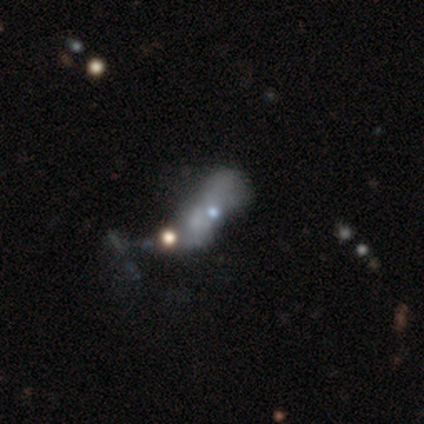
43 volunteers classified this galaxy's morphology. Smooth or featured?
  - featured or disk: 44% *
  - smooth: 35%
  - star or artifact: 21%
Edge-on disk?
  - no: 89% *
  - yes: 11%
Bar?
  - no: 100% *
  - strong: 0%
  - weak: 0%
Spiral arms?
  - no: 100% *
  - yes: 0%
Bulge size?
  - small: 41% *
  - none: 35%
  - moderate: 24%
  - dominant: 0%
  - large: 0%
Merging?
  - merger: 47% *
  - major disturbance: 29%
  - minor disturbance: 15%
  - none: 9%